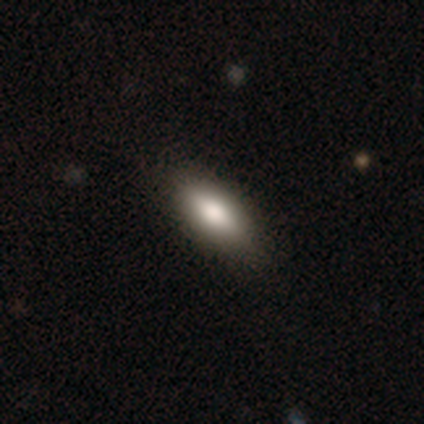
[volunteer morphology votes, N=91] A smooth galaxy with no disk features (71%) that is in between round and cigar-shaped (82%).

Vote fractions:
- Smooth or featured? smooth: 71% / featured or disk: 15% / star or artifact: 13%
- How rounded? in between: 82% / cigar-shaped: 15% / round: 3%
- Merging? none: 82% / minor disturbance: 11% / major disturbance: 5% / merger: 1%